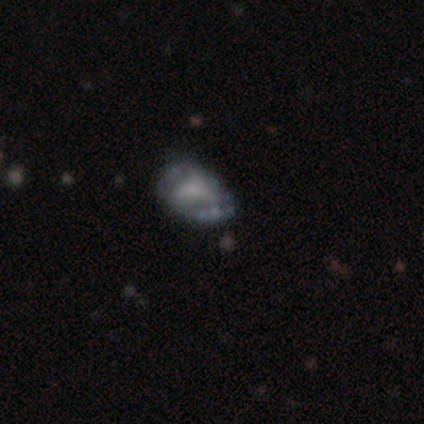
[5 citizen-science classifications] Smooth or featured?
  - featured or disk: 60% *
  - smooth: 40%
  - star or artifact: 0%
Edge-on disk?
  - no: 100% *
  - yes: 0%
Bar?
  - no: 100% *
  - strong: 0%
  - weak: 0%
Spiral arms?
  - no: 67% *
  - yes: 33%
Bulge size?
  - small: 67% *
  - moderate: 33%
  - dominant: 0%
  - large: 0%
  - none: 0%
Merging?
  - major disturbance: 60% *
  - none: 20%
  - minor disturbance: 20%
  - merger: 0%